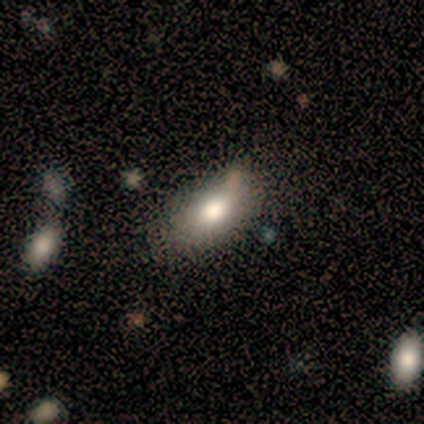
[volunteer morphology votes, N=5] Smooth or featured? 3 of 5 (60%) said smooth. How rounded? 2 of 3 (67%) said in between. Merging? 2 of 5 (40%, tied with minor disturbance) said none.